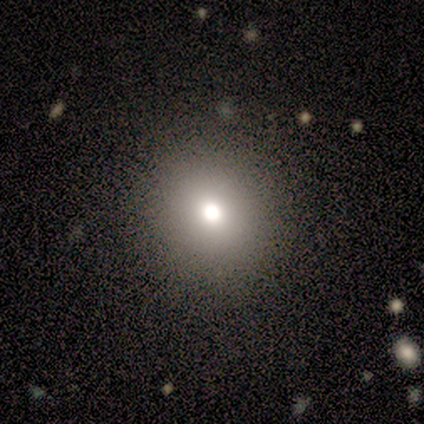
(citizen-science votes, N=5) Volunteers were most divided on "smooth or featured": smooth: 80%, star or artifact: 20%, featured or disk: 0%. More confident: how rounded — round (100%); merging — none (100%).